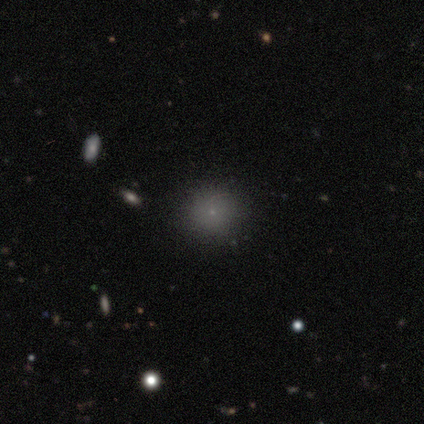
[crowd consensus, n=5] Overall: smooth (80%). How rounded: round (100%). Merging: none (100%).